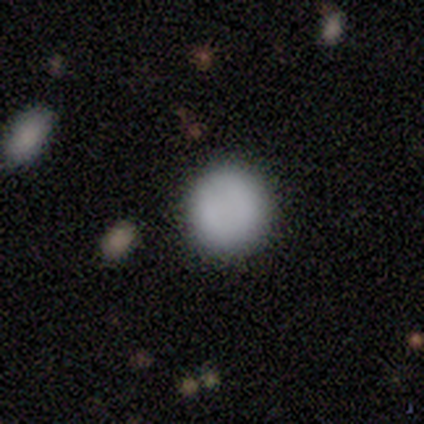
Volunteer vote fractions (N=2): This appears to be a smooth galaxy with no disk features (100%) that is round (100%). Merging: none (100%).